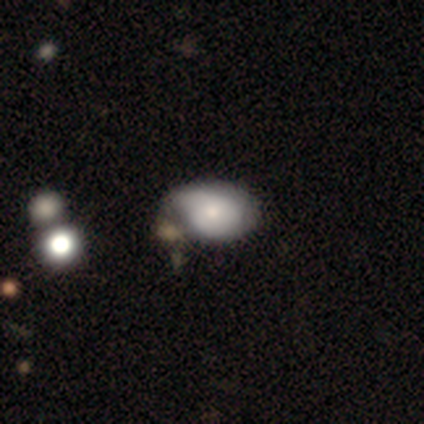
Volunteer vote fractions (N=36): Smooth or featured?
  - featured or disk: 50% *
  - smooth: 39%
  - star or artifact: 11%
Edge-on disk?
  - no: 100% *
  - yes: 0%
Bar?
  - no: 89% *
  - weak: 11%
  - strong: 0%
Spiral arms?
  - yes: 67% *
  - no: 33%
Spiral winding?
  - medium: 42% *
  - tight: 33%
  - loose: 25%
Spiral arm count?
  - 2: 42% *
  - can't tell: 33%
  - 1: 25%
  - 3: 0%
  - 4: 0%
  - more than 4: 0%
Bulge size?
  - moderate: 44% *
  - small: 33%
  - large: 17%
  - none: 6%
  - dominant: 0%
Merging?
  - minor disturbance: 41% *
  - merger: 25%
  - none: 9%
  - major disturbance: 9%